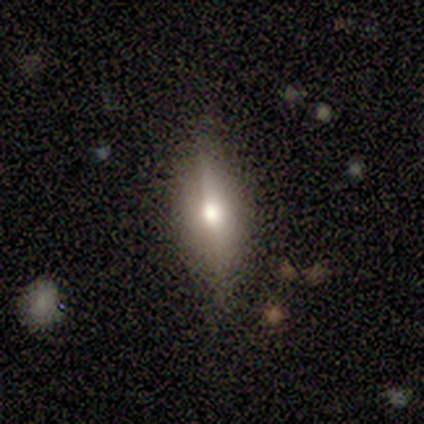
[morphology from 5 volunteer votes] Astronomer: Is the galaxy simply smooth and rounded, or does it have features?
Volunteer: featured or disk — 60% (runner-up: smooth, 40%).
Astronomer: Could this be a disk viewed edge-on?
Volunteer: yes — 67%.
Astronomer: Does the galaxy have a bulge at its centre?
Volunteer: rounded — 100%.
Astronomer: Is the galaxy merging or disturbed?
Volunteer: none — 80%.